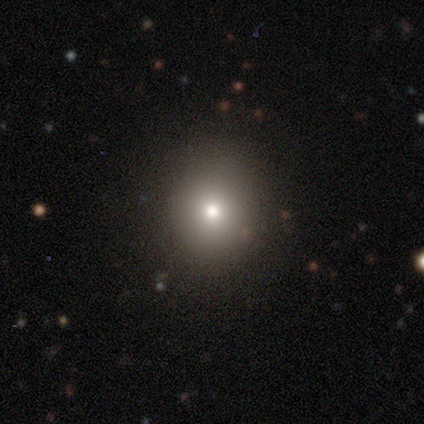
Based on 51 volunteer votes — smooth-or-featured: smooth: 73% | star or artifact: 24% | featured or disk: 4%
  how-rounded: round: 89% | in between: 11% | cigar-shaped: 0%
  merging: none: 97% | major disturbance: 3% | minor disturbance: 0% | merger: 0%